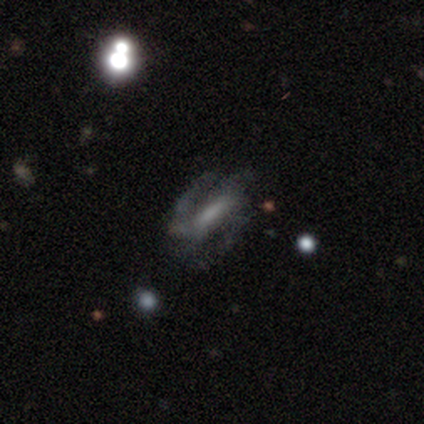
Smooth or featured? 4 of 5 (80%) said featured or disk. Edge-on disk? 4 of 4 (100%) said no. Bar? 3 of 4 (75%) said no. Spiral arms? 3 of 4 (75%) said yes. Spiral winding? 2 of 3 (67%) said medium. Spiral arm count? 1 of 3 (33%, tied with 3 and 4) said 2. Bulge size? 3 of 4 (75%) said none. Merging? 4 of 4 (100%) said none.